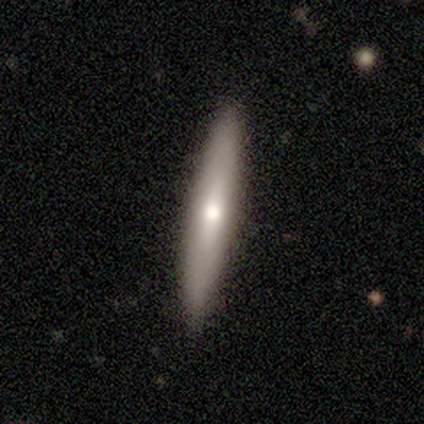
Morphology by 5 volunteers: Smooth or featured: smooth — 80% (featured or disk — 20%)
How rounded: cigar-shaped — 75% (in between — 25%)
Merging: none — 100%